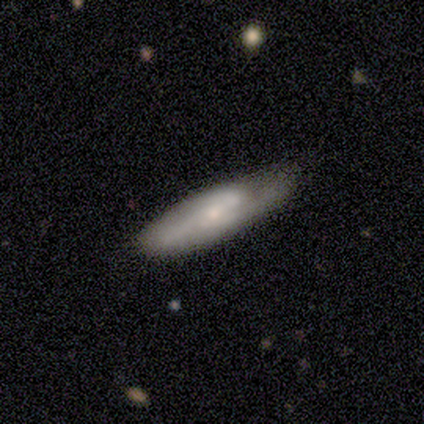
Smooth or featured? 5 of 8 (62%) said featured or disk. Edge-on disk? 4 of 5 (80%) said no. Bar? 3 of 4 (75%) said no. Spiral arms? 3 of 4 (75%) said yes. Spiral winding? 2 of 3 (67%) said tight. Spiral arm count? 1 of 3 (33%, tied with 3 and can't tell) said 2. Bulge size? 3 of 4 (75%) said small. Merging? 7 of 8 (88%) said none.